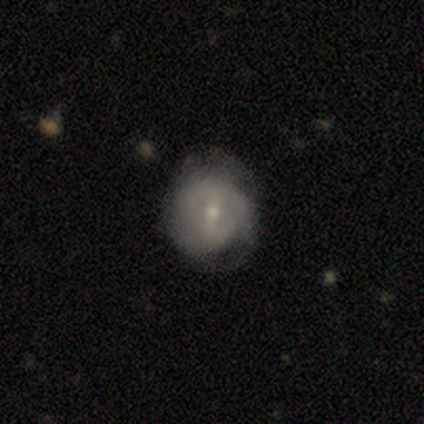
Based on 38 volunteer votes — A featured or disk galaxy (66%) with a weak bar (54%), 2 (44%, tied with can't tell) tight (39%, tied with medium) spiral arms (75%) and a small central bulge (71%). Merging: none (55%).